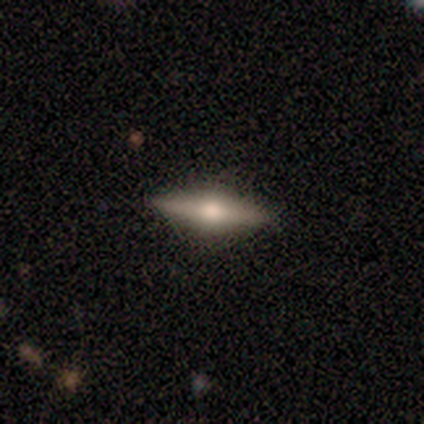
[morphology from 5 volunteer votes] This appears to be a featured or disk galaxy (80%) viewed edge-on (100%) with a rounded central bulge (100%). Merging: none (100%).